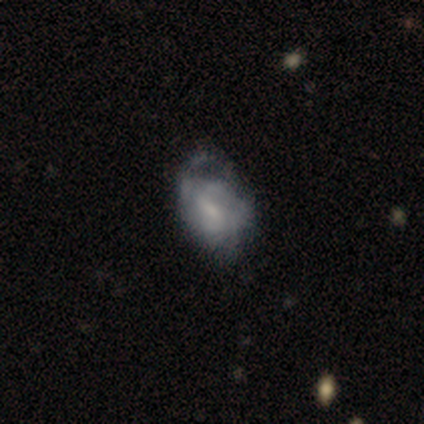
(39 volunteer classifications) Morphology: type=featured or disk (54%); edge-on=no (100%); bar=weak (48%); spiral arms=no (57%); bulge=small (52%); merging=major disturbance (36%).